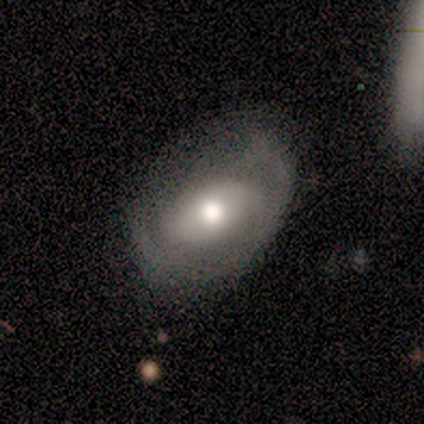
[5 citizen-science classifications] featured or disk 60%, smooth 40%, star or artifact 0%. Down the decision tree: edge-on disk — no (100%); bar — strong (33%, tied with weak and no); spiral arms — no (67%); bulge size — moderate (67%); merging — none (100%).